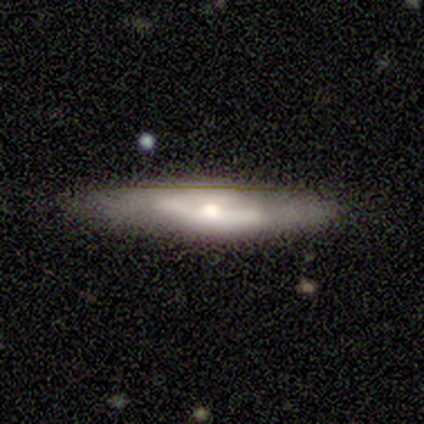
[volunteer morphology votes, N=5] Smooth or featured? featured or disk (100%)
Edge-on disk? no (60%)
Bar? strong (33%, tied with weak and no)
Spiral arms? no (67%)
Bulge size? small (100%)
Merging? none (100%)